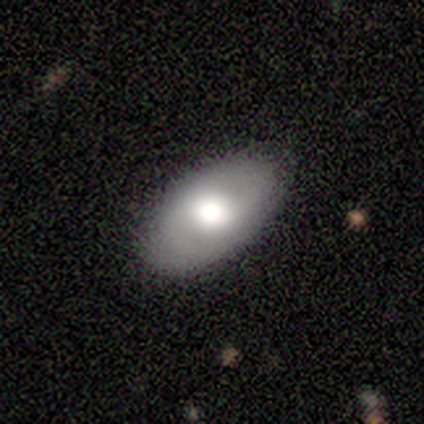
Overall: smooth (60%; featured or disk 40%). How rounded: in between (100%). Merging: minor disturbance (60%; none 40%).